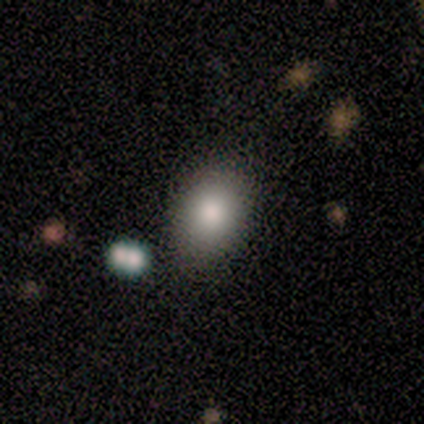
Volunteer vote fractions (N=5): smooth_or_featured: smooth (p=0.60) [alt: featured or disk p=0.40]
how_rounded: in between (p=1.00)
merging: none (p=0.40) [tied with: minor disturbance p=0.40]